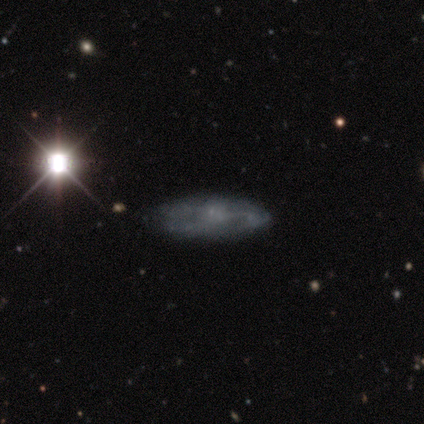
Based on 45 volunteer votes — This appears to be a featured or disk galaxy (56%) with no bar (73%), no spiral arms (55%) and a small central bulge (41%, tied with none). Merging: none (69%).